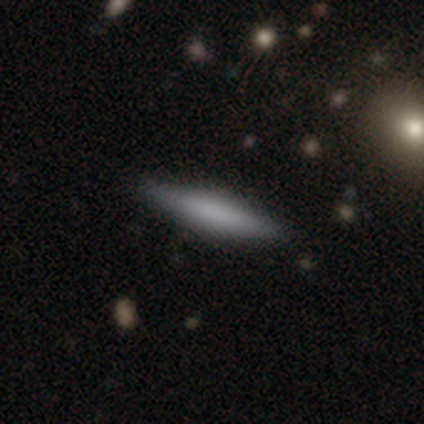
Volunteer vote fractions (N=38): A smooth galaxy with no disk features (66%) that is cigar-shaped (84%).

Vote fractions:
- Smooth or featured? smooth: 66% / featured or disk: 26% / star or artifact: 8%
- How rounded? cigar-shaped: 84% / in between: 16% / round: 0%
- Merging? none: 97% / major disturbance: 3% / minor disturbance: 0% / merger: 0%